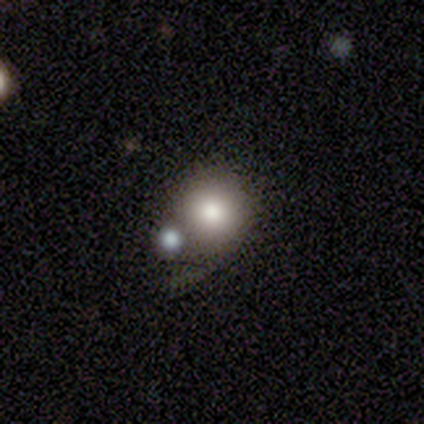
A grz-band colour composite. It shows a smooth galaxy with no disk features (50%) that is round (100%). Merging: none (60%).